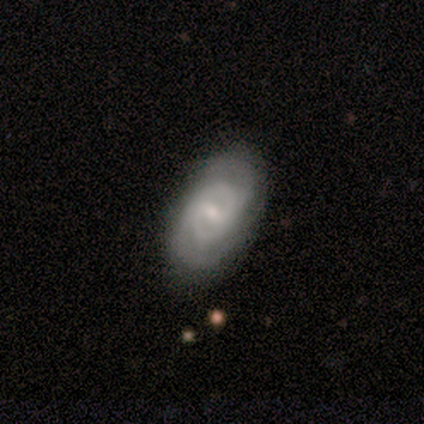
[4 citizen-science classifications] Q: Smooth or featured?
A: featured or disk (75%); runner-up: smooth (25%)
Q: Edge-on disk?
A: no (100%)
Q: Bar?
A: strong (33%); tied with: weak (33%); no (33%)
Q: Spiral arms?
A: yes (67%); runner-up: no (33%)
Q: Spiral winding?
A: tight (100%)
Q: Spiral arm count?
A: 2 (50%); tied with: more than 4 (50%)
Q: Bulge size?
A: small (100%)
Q: Merging?
A: none (100%)